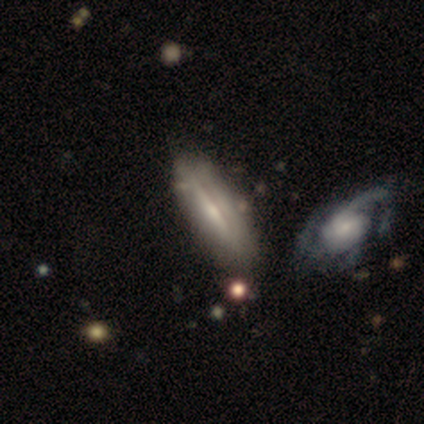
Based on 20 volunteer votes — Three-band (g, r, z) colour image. It shows a featured or disk galaxy (70%) viewed edge-on (79%) with a rounded central bulge (55%). Merging: none (70%).